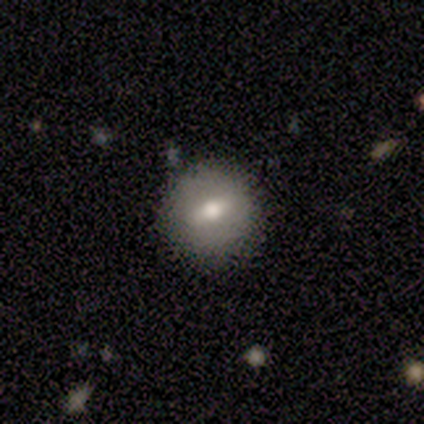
Smooth or featured? 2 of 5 (40%, tied with featured or disk) said smooth. How rounded? 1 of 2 (50%, tied with in between) said round. Merging? 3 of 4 (75%) said none.